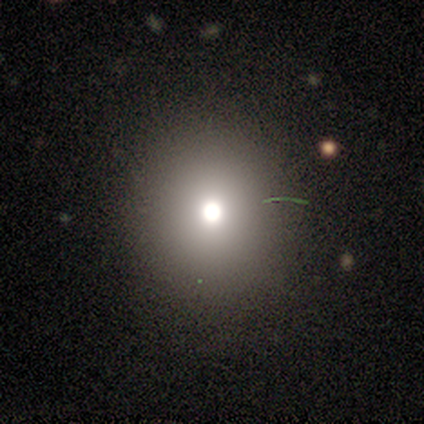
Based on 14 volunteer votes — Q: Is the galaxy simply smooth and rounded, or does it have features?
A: smooth — 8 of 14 (57%).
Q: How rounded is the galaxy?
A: round — 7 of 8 (88%).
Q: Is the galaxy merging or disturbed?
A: none — 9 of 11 (82%).